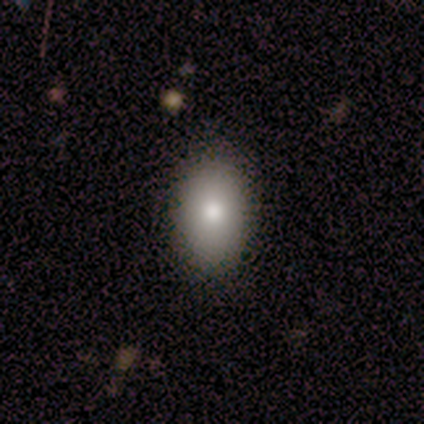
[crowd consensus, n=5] smooth 80%, featured or disk 20%, star or artifact 0%. Down the decision tree: how rounded — in between (100%); merging — none (60%).